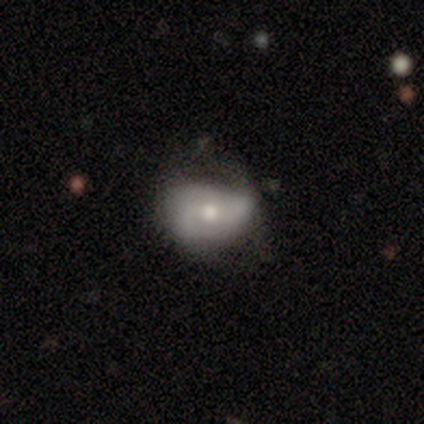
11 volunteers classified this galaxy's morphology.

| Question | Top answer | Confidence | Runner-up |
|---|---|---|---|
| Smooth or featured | featured or disk | 55% | smooth (45%) |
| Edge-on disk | no | 100% | — |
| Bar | no | 83% | weak (17%) |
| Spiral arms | yes | 67% | no (33%) |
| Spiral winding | medium | 75% | loose (25%) |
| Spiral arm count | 2 | 50% | tied: can't tell (50%) |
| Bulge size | moderate | 83% | small (17%) |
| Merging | none | 45% | minor disturbance (36%) |